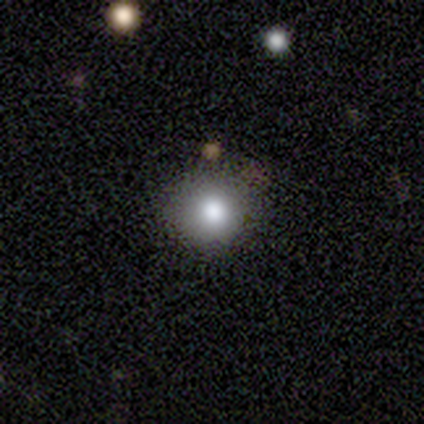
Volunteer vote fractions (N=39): smooth 85%, featured or disk 13%, star or artifact 3%. Down the decision tree: how rounded — round (91%); merging — none (87%).